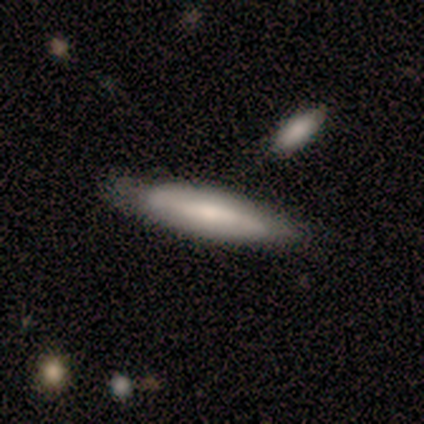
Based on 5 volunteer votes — This appears to be a smooth galaxy with no disk features (80%) that is cigar-shaped (75%). Merging: none (60%).